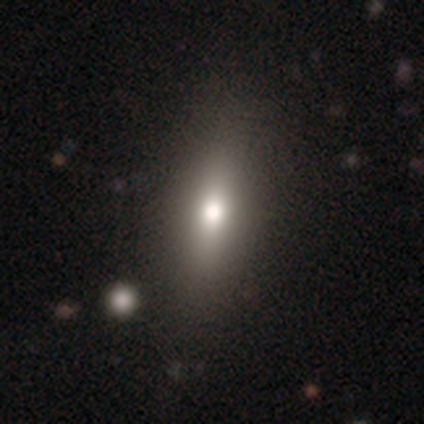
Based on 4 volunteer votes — smooth-or-featured: smooth: 100% | featured or disk: 0% | star or artifact: 0%
  how-rounded: in between: 75% | cigar-shaped: 25% | round: 0%
  merging: none: 100% | minor disturbance: 0% | major disturbance: 0% | merger: 0%